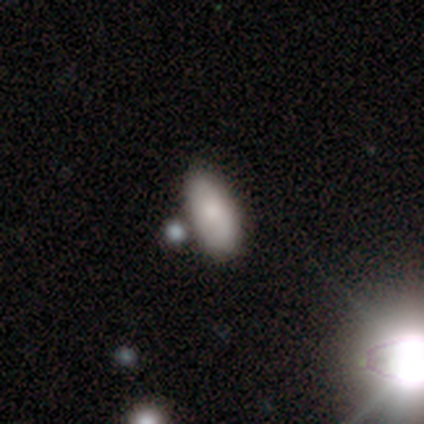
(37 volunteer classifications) smooth-or-featured: smooth: 78% | featured or disk: 14% | star or artifact: 8%
  how-rounded: in between: 86% | cigar-shaped: 10% | round: 3%
  merging: none: 82% | minor disturbance: 9% | merger: 9% | major disturbance: 0%